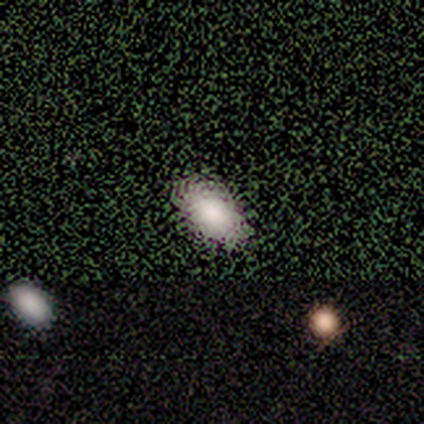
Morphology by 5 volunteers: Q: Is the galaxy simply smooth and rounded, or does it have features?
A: smooth — 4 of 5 (80%).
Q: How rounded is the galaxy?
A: in between — 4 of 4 (100%).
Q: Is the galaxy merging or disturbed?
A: none — 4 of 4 (100%).